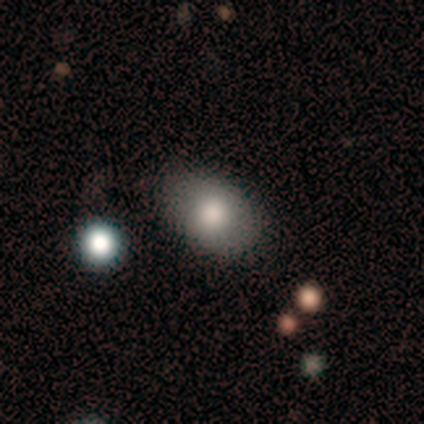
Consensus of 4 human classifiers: Overall: smooth (50%; featured or disk 25%). How rounded: in between (100%). Merging: none (100%).